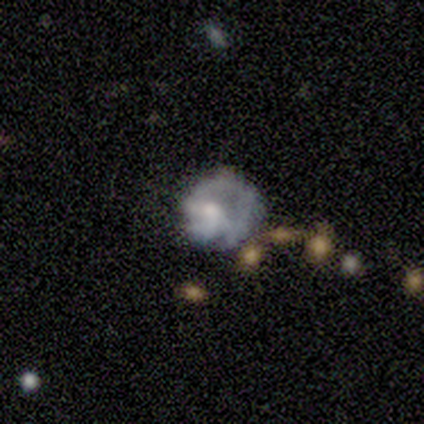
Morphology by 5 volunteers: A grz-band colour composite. It shows a smooth galaxy with no disk features (40%, tied with featured or disk) that is round (100%). Merging: none (50%, tied with major disturbance).